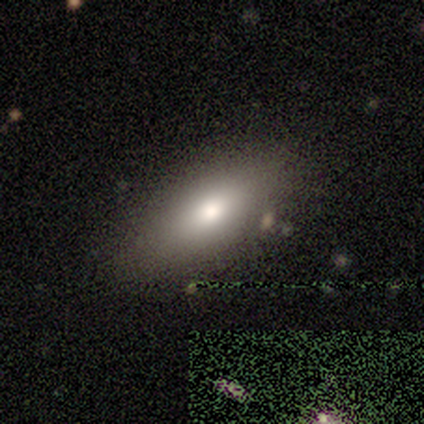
smooth_or_featured: smooth (p=0.86) [alt: featured or disk p=0.14]
how_rounded: in between (p=0.83) [alt: cigar-shaped p=0.17]
merging: none (p=0.71) [alt: minor disturbance p=0.29]